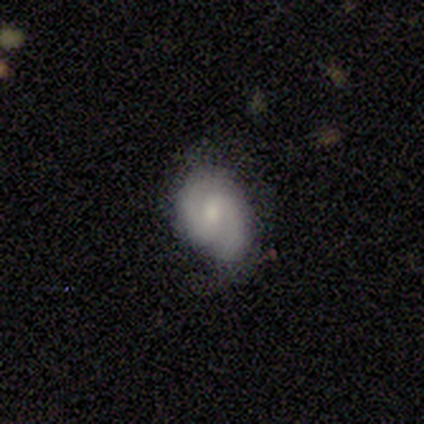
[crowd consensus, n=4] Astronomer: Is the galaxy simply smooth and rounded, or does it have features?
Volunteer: featured or disk — 75%.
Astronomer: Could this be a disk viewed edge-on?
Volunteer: no — 100%.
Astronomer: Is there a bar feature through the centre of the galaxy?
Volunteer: weak — 67%.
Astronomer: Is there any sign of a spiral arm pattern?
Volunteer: yes — 100%.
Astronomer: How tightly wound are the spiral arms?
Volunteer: medium — 100%.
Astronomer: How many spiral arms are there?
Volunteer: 2 — 100%.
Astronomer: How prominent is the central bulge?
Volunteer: moderate — 33%, tied with small and none at 33%.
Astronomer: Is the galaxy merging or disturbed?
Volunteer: none — 50%, tied with minor disturbance at 50%.